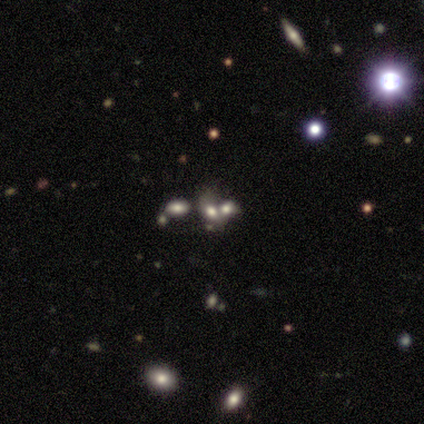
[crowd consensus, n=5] Smooth or featured: smooth — 40% (tied with featured or disk — 40%)
How rounded: in between — 100%
Merging: none — 50% (minor disturbance — 25%)